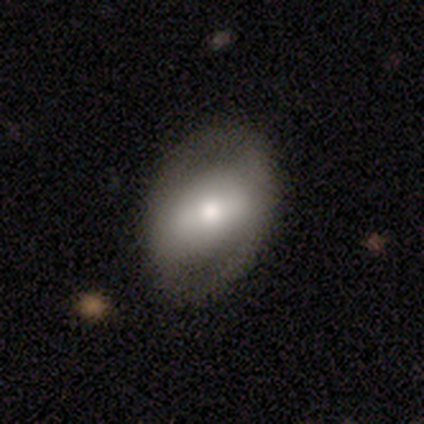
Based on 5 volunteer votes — smooth-or-featured: smooth: 60% | featured or disk: 40% | star or artifact: 0%
  how-rounded: in between: 100% | round: 0% | cigar-shaped: 0%
  merging: none: 100% | minor disturbance: 0% | major disturbance: 0% | merger: 0%